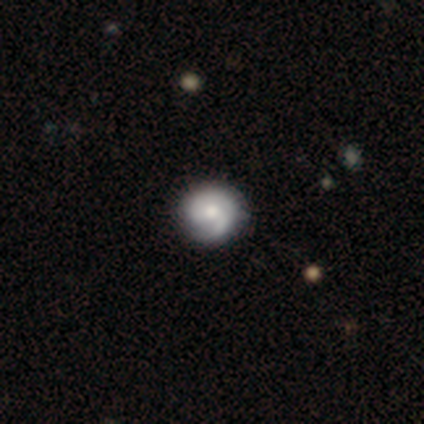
Smooth or featured?
  - featured or disk: 100% *
  - smooth: 0%
  - star or artifact: 0%
Edge-on disk?
  - no: 100% *
  - yes: 0%
Bar?
  - no: 100% *
  - strong: 0%
  - weak: 0%
Spiral arms?
  - yes: 100% *
  - no: 0%
Spiral winding?
  - tight: 50% * (tied)
  - medium: 50% * (tied)
  - loose: 0%
Spiral arm count?
  - 1: 50% * (tied)
  - can't tell: 50% * (tied)
  - 2: 0%
  - 3: 0%
  - 4: 0%
  - more than 4: 0%
Bulge size?
  - large: 50% * (tied)
  - moderate: 50% * (tied)
  - dominant: 0%
  - small: 0%
  - none: 0%
Merging?
  - none: 100% *
  - minor disturbance: 0%
  - major disturbance: 0%
  - merger: 0%